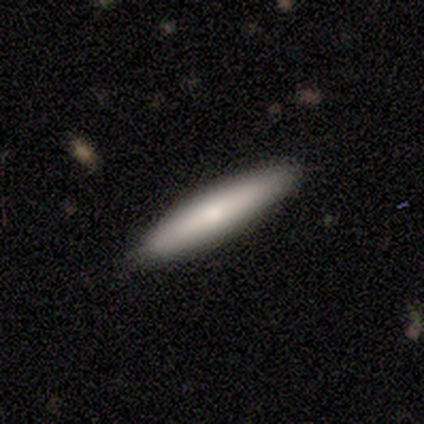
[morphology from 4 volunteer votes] Smooth or featured?
  - smooth: 100% *
  - featured or disk: 0%
  - star or artifact: 0%
How rounded?
  - cigar-shaped: 100% *
  - round: 0%
  - in between: 0%
Merging?
  - none: 100% *
  - minor disturbance: 0%
  - major disturbance: 0%
  - merger: 0%